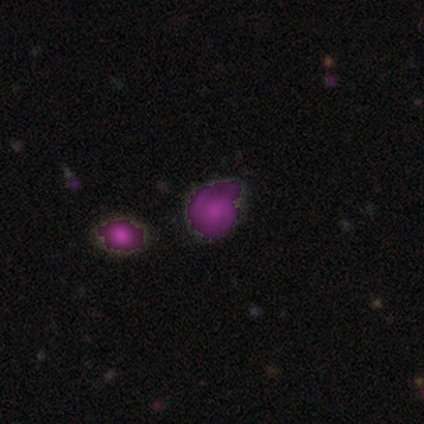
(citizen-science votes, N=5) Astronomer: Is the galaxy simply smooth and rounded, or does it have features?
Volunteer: star or artifact — 60%.